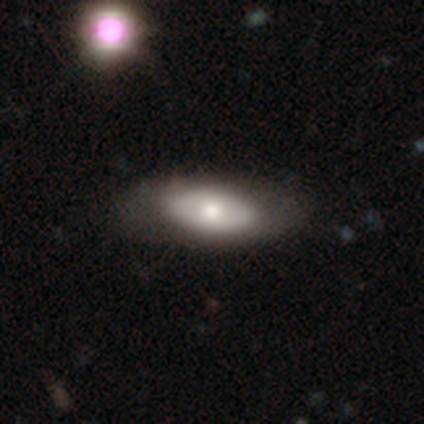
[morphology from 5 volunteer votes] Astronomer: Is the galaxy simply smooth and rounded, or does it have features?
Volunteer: featured or disk — 60% (runner-up: smooth, 40%).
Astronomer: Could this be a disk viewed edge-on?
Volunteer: no — 100%.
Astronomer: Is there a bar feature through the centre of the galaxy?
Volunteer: weak — 67%.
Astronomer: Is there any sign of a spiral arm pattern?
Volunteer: no — 67%.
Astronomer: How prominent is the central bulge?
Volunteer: moderate — 67%.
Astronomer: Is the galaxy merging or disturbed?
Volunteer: none — 60%.